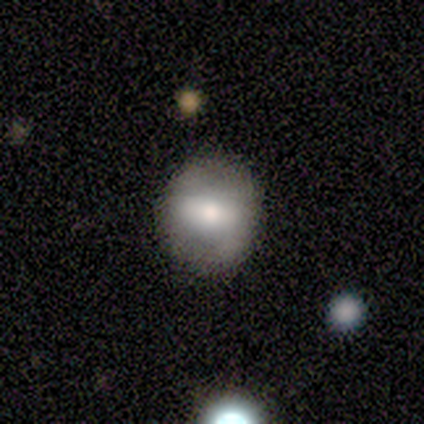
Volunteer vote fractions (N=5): This is clearly a smooth galaxy (80%). How rounded: likely round (75%). Merging: clearly none (100%).